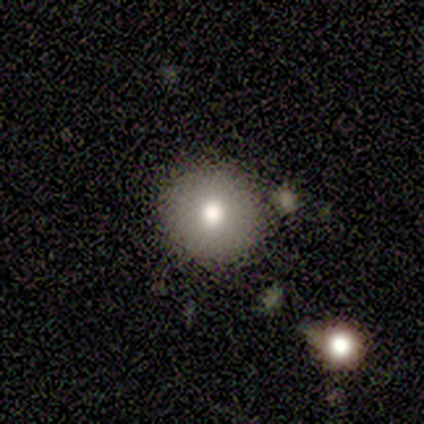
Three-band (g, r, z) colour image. It shows a smooth galaxy with no disk features (75%) that is round (100%). Merging: none (100%).